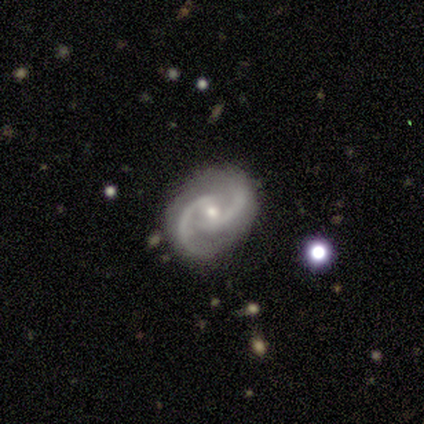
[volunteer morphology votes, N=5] smooth_or_featured: featured or disk (p=1.00)
disk_edge_on: no (p=1.00)
bar: no (p=0.60) [alt: weak p=0.40]
has_spiral_arms: yes (p=1.00)
spiral_winding: medium (p=0.80) [alt: tight p=0.20]
spiral_arm_count: 2 (p=1.00)
bulge_size: small (p=1.00)
merging: none (p=1.00)